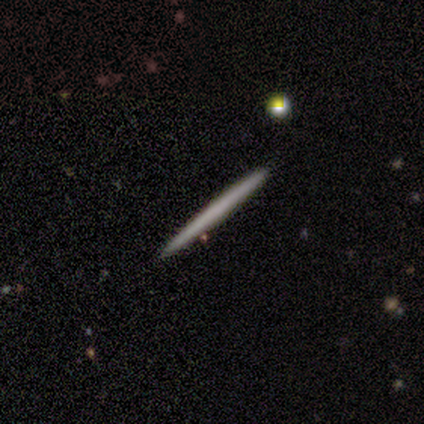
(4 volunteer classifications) Q: Smooth or featured?
A: smooth (100%)
Q: How rounded?
A: cigar-shaped (100%)
Q: Merging?
A: none (75%); runner-up: minor disturbance (25%)